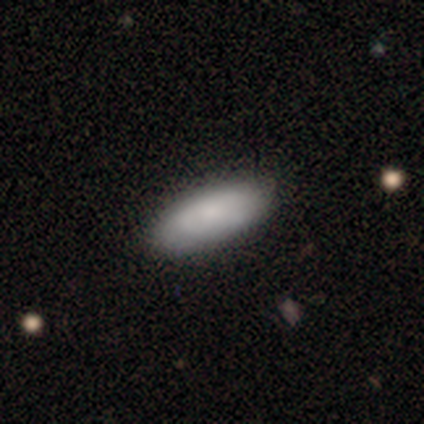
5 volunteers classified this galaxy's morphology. Smooth or featured?
  - smooth: 100% *
  - featured or disk: 0%
  - star or artifact: 0%
How rounded?
  - in between: 100% *
  - round: 0%
  - cigar-shaped: 0%
Merging?
  - none: 100% *
  - minor disturbance: 0%
  - major disturbance: 0%
  - merger: 0%